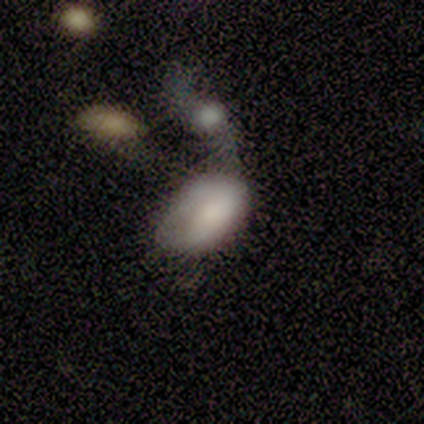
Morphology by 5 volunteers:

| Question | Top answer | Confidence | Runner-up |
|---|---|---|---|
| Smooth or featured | smooth | 100% | — |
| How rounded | in between | 100% | — |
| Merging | minor disturbance | 40% | tied: merger (40%) |